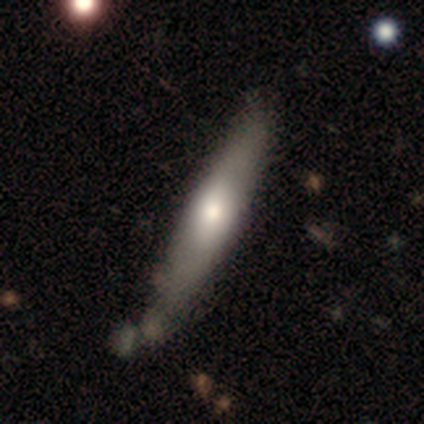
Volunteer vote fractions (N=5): Smooth or featured? 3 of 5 (60%) said featured or disk. Edge-on disk? 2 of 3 (67%) said yes. Edge-on bulge? 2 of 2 (100%) said rounded. Merging? 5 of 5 (100%) said none.